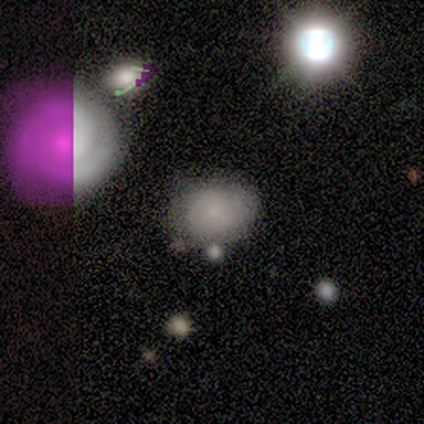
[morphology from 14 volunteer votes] smooth 64%, featured or disk 21%, star or artifact 14%. Down the decision tree: how rounded — in between (78%); merging — none (67%).